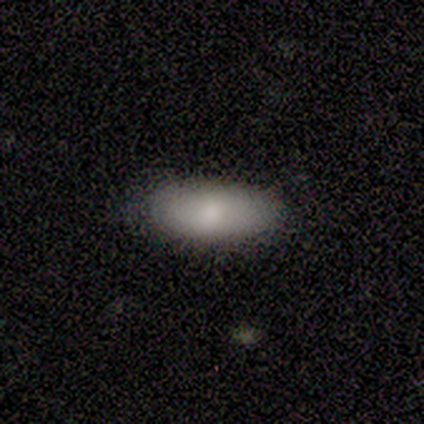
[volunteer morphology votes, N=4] type=smooth (100%); roundness=in between (75%); merging=none (75%).